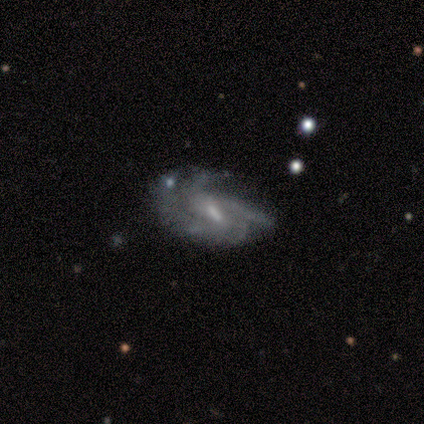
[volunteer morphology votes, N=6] smooth-or-featured: featured or disk: 50% | star or artifact: 33% | smooth: 17%
  disk-edge-on: no: 100% | yes: 0%
    bar: weak: 67% | no: 33% | strong: 0%
    has-spiral-arms: yes: 67% | no: 33%
      spiral-winding: medium: 50% (tied) | loose: 50% (tied) | tight: 0%
      spiral-arm-count: 2: 50% (tied) | 3: 50% (tied) | 1: 0% | 4: 0% | more than 4: 0% | can't tell: 0%
    bulge-size: small: 100% | dominant: 0% | large: 0% | moderate: 0% | none: 0%
  merging: minor disturbance: 75% | major disturbance: 25% | none: 0% | merger: 0%